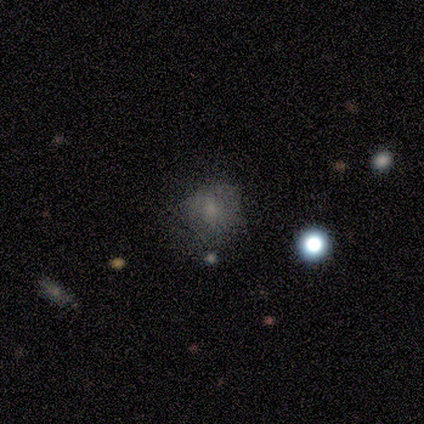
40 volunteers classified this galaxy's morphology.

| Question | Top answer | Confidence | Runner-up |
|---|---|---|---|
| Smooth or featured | smooth | 55% | star or artifact (28%) |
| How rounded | round | 73% | in between (27%) |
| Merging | none | 45% | minor disturbance (24%) |